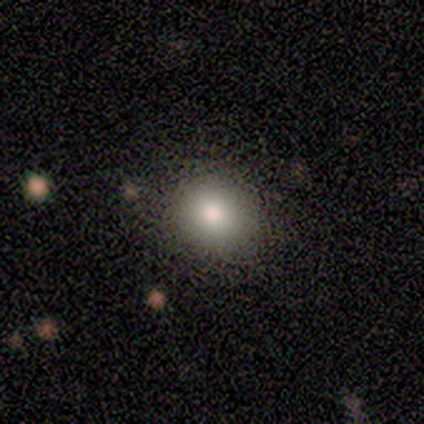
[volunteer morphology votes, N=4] smooth 50% (tied), star or artifact 50% (tied), featured or disk 0%. Down the decision tree: how rounded — round (100%); merging — none (100%).